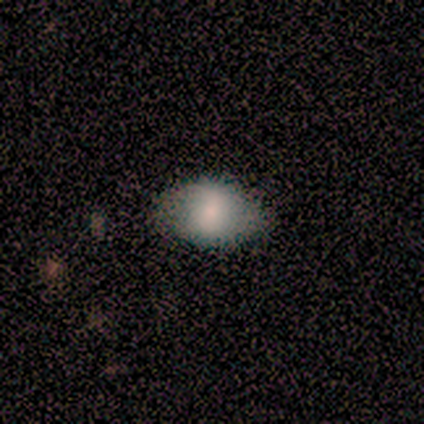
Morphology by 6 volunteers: A smooth galaxy with no disk features (67%) that is in between round and cigar-shaped (75%).

Vote fractions:
- Smooth or featured? smooth: 67% / featured or disk: 17% / star or artifact: 17%
- How rounded? in between: 75% / round: 25% / cigar-shaped: 0%
- Merging? none: 60% / minor disturbance: 20% / major disturbance: 20% / merger: 0%